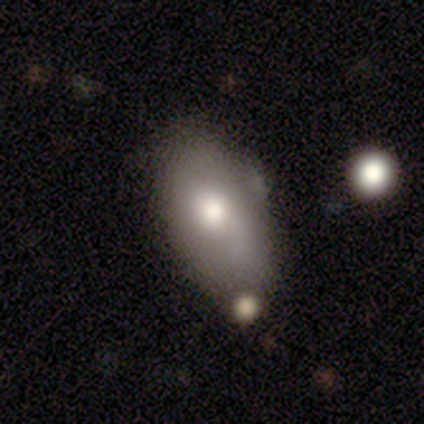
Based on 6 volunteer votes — Morphology: type=smooth (50%); roundness=in between (100%); merging=none (50%, tied with minor disturbance).